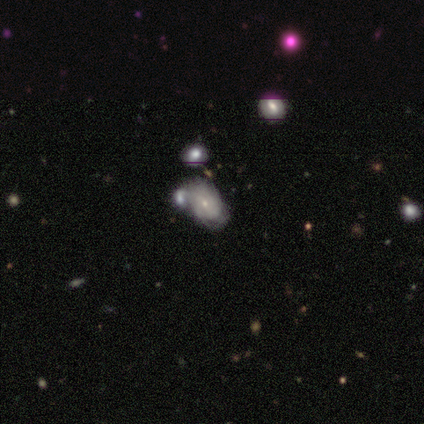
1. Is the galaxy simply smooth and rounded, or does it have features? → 64% featured or disk, 32% smooth, 4% star or artifact.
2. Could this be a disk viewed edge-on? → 100% no, 0% yes.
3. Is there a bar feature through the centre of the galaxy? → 78% no, 19% weak, 3% strong.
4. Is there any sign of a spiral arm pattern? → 58% yes, 42% no.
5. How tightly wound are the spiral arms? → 67% tight, 29% medium, 5% loose.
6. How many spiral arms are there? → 62% can't tell, 24% 2, 5% 1, 5% 3, 5% 4, 0% more than 4.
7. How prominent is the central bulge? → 81% small, 17% moderate, 3% large, 0% dominant, 0% none.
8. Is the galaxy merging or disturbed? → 39% merger, 26% minor disturbance, 24% none, 11% major disturbance.